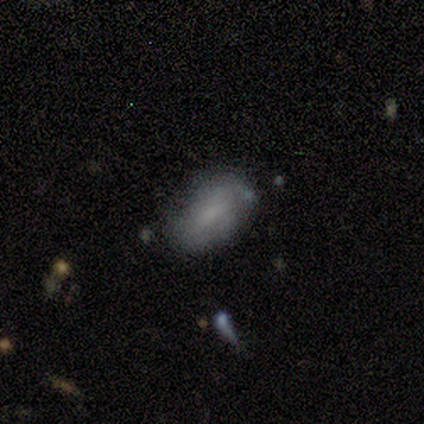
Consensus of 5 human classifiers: Smooth or featured?
  - smooth: 80% *
  - featured or disk: 20%
  - star or artifact: 0%
How rounded?
  - in between: 100% *
  - round: 0%
  - cigar-shaped: 0%
Merging?
  - none: 60% *
  - minor disturbance: 20%
  - merger: 20%
  - major disturbance: 0%